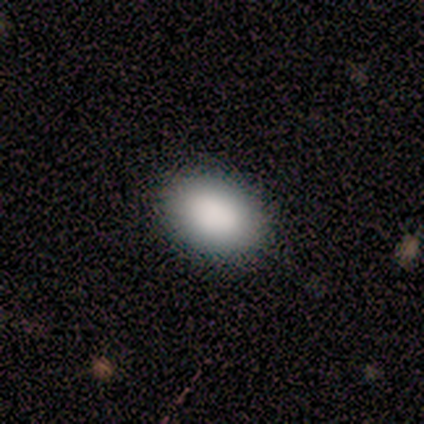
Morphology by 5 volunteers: A smooth galaxy with no disk features (100%) that is in between round and cigar-shaped (80%). Merging: none (100%).